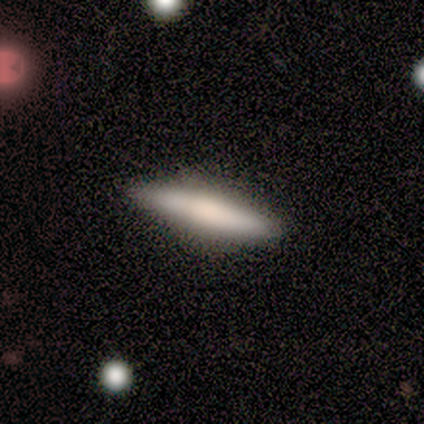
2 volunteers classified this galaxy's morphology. Volunteers were most divided on "smooth or featured" (2-way tie): smooth: 50%, featured or disk: 50%, star or artifact: 0%. More confident: how rounded — cigar-shaped (100%); merging — none (100%).